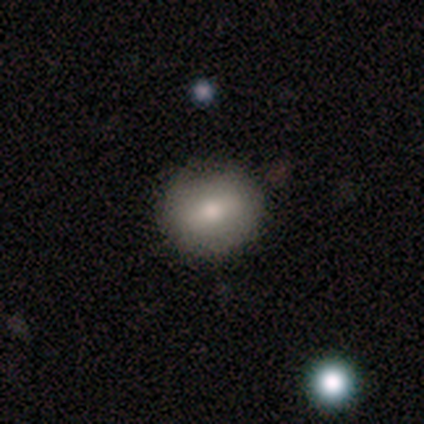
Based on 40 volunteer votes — Morphology: type=smooth (55%); roundness=round (91%); merging=none (97%).